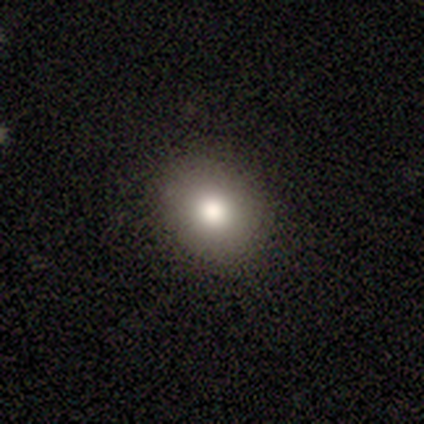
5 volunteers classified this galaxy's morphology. This appears to be a smooth galaxy with no disk features (60%) that is round (67%). Merging: none (75%).